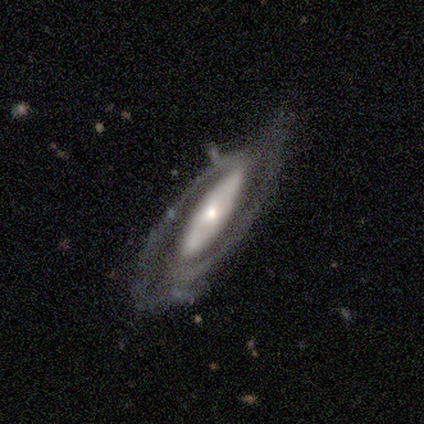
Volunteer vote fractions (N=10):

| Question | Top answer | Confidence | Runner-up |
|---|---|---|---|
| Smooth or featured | featured or disk | 90% | smooth (10%) |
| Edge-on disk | no | 100% | — |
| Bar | strong | 78% | no (22%) |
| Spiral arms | yes | 89% | no (11%) |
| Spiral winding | tight | 50% | medium (25%) |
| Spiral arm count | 2 | 100% | — |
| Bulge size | moderate | 44% | tied: small (44%) |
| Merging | none | 70% | major disturbance (30%) |